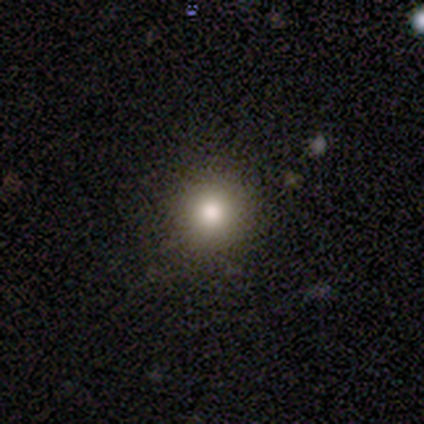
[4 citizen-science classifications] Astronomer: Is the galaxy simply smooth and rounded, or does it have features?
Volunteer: smooth — 75%.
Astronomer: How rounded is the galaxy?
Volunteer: round — 100%.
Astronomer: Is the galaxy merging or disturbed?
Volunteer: none — 100%.